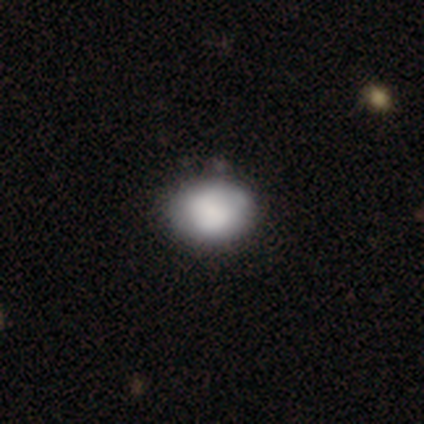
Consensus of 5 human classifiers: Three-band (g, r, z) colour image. It shows a smooth galaxy with no disk features (100%) that is in between round and cigar-shaped (60%). Merging: none (100%).